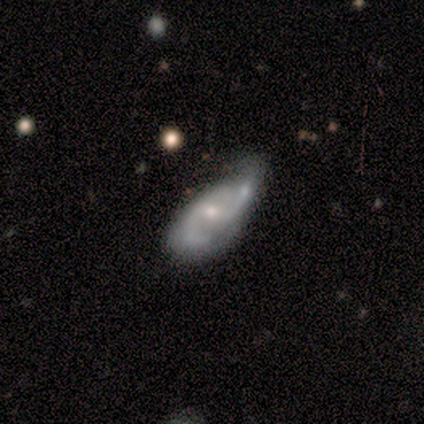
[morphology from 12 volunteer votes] Smooth or featured?
  - featured or disk: 50% *
  - smooth: 33%
  - star or artifact: 17%
Edge-on disk?
  - no: 83% *
  - yes: 17%
Bar?
  - strong: 40% * (tied)
  - no: 40% * (tied)
  - weak: 20%
Spiral arms?
  - yes: 100% *
  - no: 0%
Spiral winding?
  - tight: 40% * (tied)
  - loose: 40% * (tied)
  - medium: 20%
Spiral arm count?
  - 2: 100% *
  - 1: 0%
  - 3: 0%
  - 4: 0%
  - more than 4: 0%
  - can't tell: 0%
Bulge size?
  - small: 60% *
  - large: 20%
  - moderate: 20%
  - dominant: 0%
  - none: 0%
Merging?
  - major disturbance: 30% * (tied)
  - merger: 30% * (tied)
  - none: 20%
  - minor disturbance: 20%